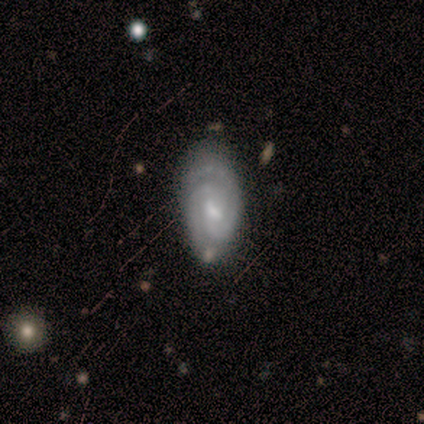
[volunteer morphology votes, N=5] Overall: featured or disk (80%). Edge-on disk: no (100%). Bar: weak (75%). Spiral arms: yes (100%). Spiral arm count: 2 (100%). Spiral winding: tight (75%). Bulge size: moderate (50%, tied with small). Merging: none (80%).